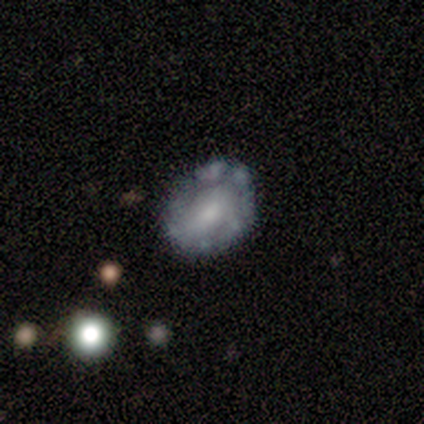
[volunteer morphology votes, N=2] A featured or disk galaxy (50%, tied with star or artifact) with no bar (100%), no spiral arms (100%) and a small central bulge (100%).

Vote fractions:
- Smooth or featured? featured or disk: 50% (tied) / star or artifact: 50% (tied) / smooth: 0%
- Edge-on disk? no: 100% / yes: 0%
- Bar? no: 100% / strong: 0% / weak: 0%
- Spiral arms? no: 100% / yes: 0%
- Bulge size? small: 100% / dominant: 0% / large: 0% / moderate: 0% / none: 0%
- Merging? merger: 100% / none: 0% / minor disturbance: 0% / major disturbance: 0%